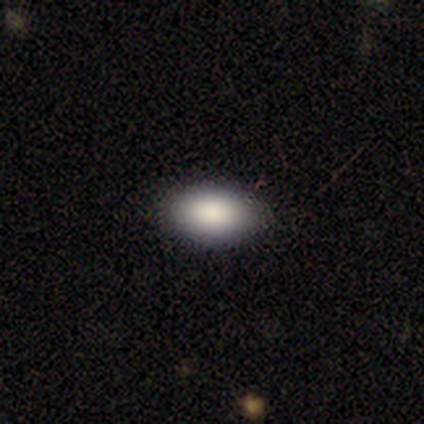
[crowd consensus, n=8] smooth-or-featured: smooth: 75% | featured or disk: 25% | star or artifact: 0%
  how-rounded: in between: 100% | round: 0% | cigar-shaped: 0%
  merging: none: 100% | minor disturbance: 0% | major disturbance: 0% | merger: 0%